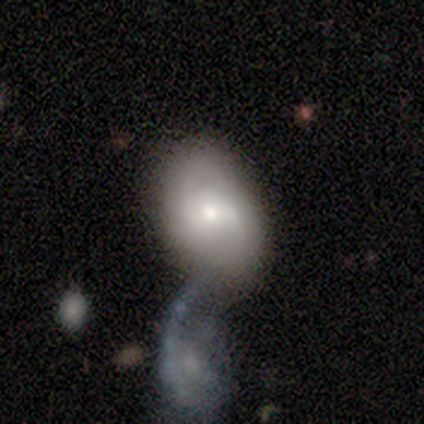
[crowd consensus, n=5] Smooth or featured? 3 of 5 (60%) said featured or disk. Edge-on disk? 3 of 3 (100%) said no. Bar? 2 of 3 (67%) said weak. Spiral arms? 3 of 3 (100%) said yes. Spiral winding? 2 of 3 (67%) said tight. Spiral arm count? 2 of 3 (67%) said 2. Bulge size? 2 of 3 (67%) said moderate. Merging? 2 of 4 (50%) said merger.